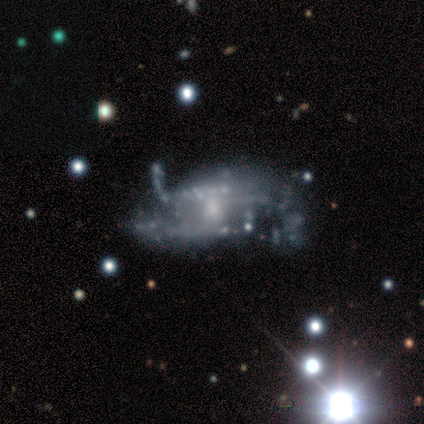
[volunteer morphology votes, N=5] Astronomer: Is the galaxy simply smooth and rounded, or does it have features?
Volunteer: featured or disk — 80%.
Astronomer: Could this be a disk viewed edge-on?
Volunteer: no — 100%.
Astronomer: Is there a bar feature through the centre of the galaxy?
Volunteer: no — 100%.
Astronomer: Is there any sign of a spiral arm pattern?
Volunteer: yes — 75%.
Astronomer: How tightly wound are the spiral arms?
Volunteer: loose — 67%.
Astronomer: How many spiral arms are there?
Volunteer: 2 — 100%.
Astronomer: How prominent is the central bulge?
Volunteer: moderate — 50%, tied with small at 50%.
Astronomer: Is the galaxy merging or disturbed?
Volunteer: major disturbance — 75%.